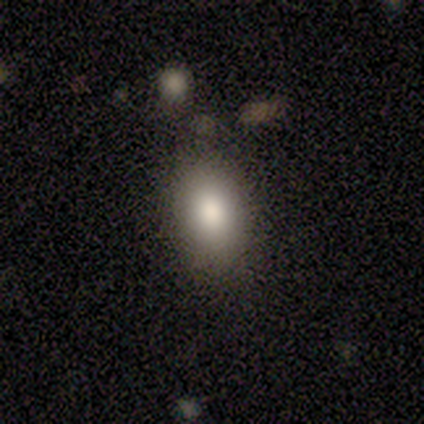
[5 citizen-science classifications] smooth-or-featured: smooth: 80% | featured or disk: 20% | star or artifact: 0%
  how-rounded: in between: 100% | round: 0% | cigar-shaped: 0%
  merging: none: 100% | minor disturbance: 0% | major disturbance: 0% | merger: 0%